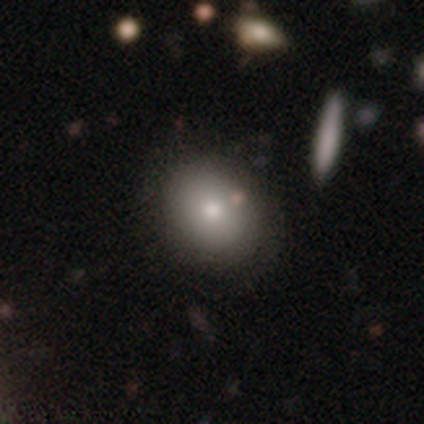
Smooth or featured: smooth — 80% (featured or disk — 20%)
How rounded: in between — 75% (round — 25%)
Merging: none — 100%